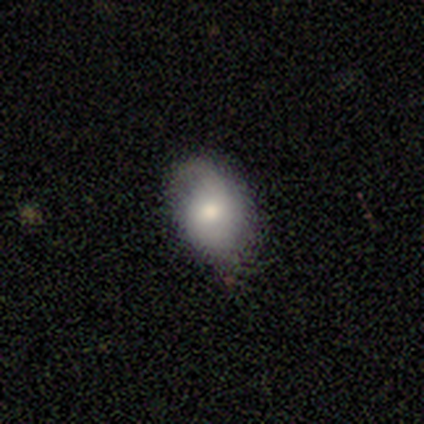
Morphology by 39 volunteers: Q: Smooth or featured?
A: smooth (59%); runner-up: featured or disk (26%)
Q: How rounded?
A: in between (87%); runner-up: round (13%)
Q: Merging?
A: none (67%); runner-up: minor disturbance (24%)